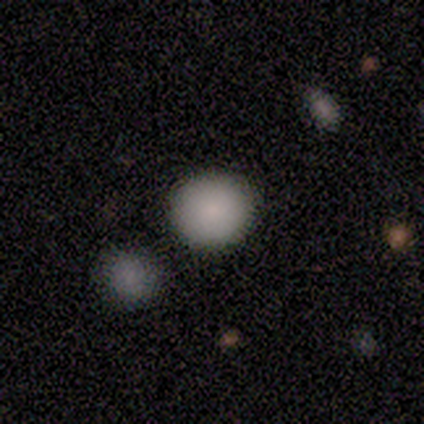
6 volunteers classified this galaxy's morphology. type=smooth (67%); roundness=round (100%); merging=none (80%).